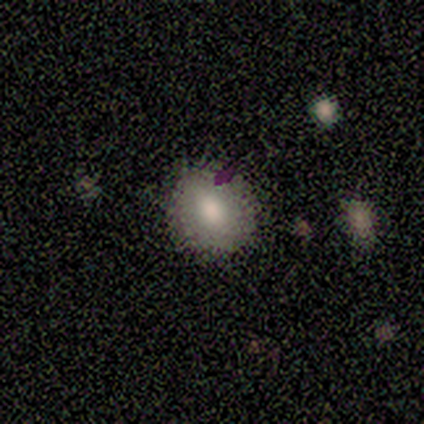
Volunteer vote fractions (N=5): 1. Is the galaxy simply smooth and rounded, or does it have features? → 80% smooth, 20% star or artifact, 0% featured or disk.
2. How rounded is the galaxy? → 50% round (tied), 50% in between (tied), 0% cigar-shaped.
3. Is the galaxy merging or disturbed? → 100% none, 0% minor disturbance, 0% major disturbance, 0% merger.